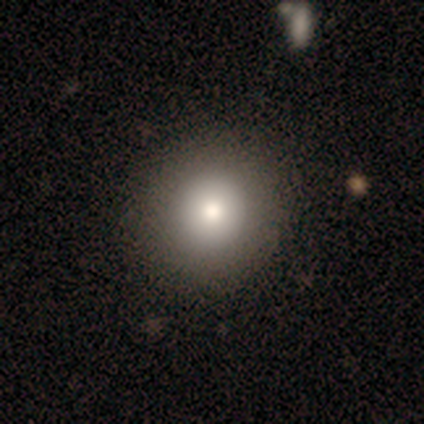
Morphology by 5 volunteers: Q: Smooth or featured?
A: smooth (100%)
Q: How rounded?
A: round (100%)
Q: Merging?
A: none (80%); runner-up: minor disturbance (20%)